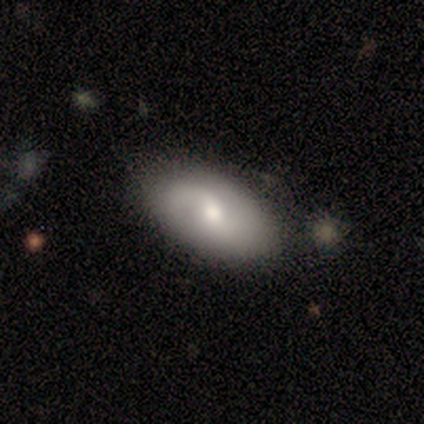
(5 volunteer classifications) Smooth or featured: smooth — 60% (featured or disk — 40%)
How rounded: in between — 100%
Merging: none — 40% (tied with minor disturbance — 40%)